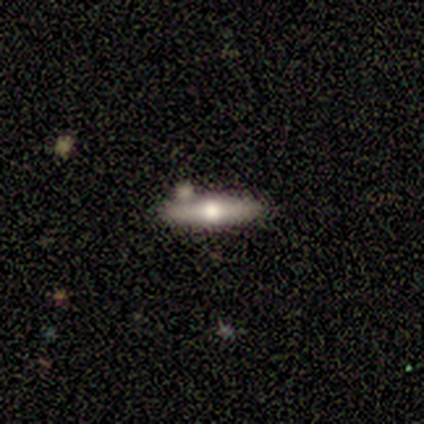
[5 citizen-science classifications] Overall: featured or disk (80%). Edge-on disk: yes (100%). Edge-on bulge: rounded (75%). Merging: none (60%; merger 40%).